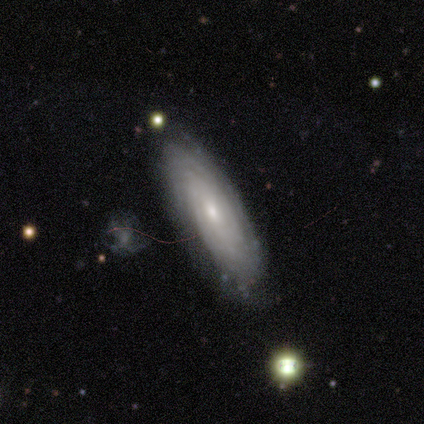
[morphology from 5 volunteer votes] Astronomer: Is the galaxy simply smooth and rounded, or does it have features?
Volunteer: featured or disk — 60% (runner-up: smooth, 40%).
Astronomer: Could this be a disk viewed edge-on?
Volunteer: no — 100%.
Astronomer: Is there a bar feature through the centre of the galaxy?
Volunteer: no — 100%.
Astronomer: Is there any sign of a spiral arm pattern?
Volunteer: yes — 100%.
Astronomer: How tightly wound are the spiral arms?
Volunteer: tight — 33%, tied with medium and loose at 33%.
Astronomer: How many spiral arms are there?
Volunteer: can't tell — 67%.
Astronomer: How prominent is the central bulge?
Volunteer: small — 100%.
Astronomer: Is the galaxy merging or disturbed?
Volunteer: none — 100%.